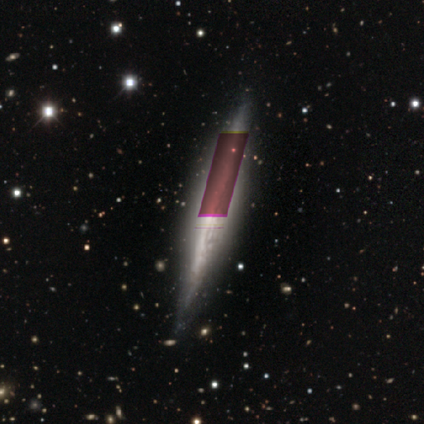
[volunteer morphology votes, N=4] This appears to be a featured or disk galaxy (100%) viewed edge-on (100%) with no central bulge (75%). Merging: none (50%, tied with minor disturbance).